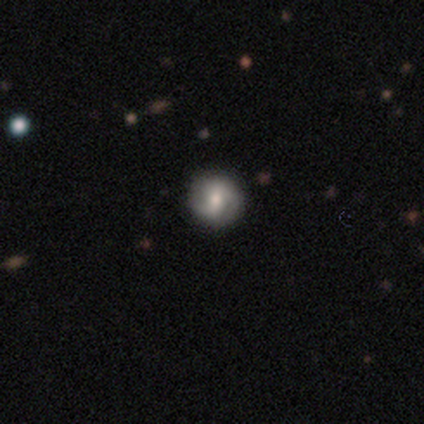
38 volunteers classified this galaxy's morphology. smooth-or-featured: smooth: 47% (tied) | featured or disk: 47% (tied) | star or artifact: 5%
  how-rounded: round: 100% | in between: 0% | cigar-shaped: 0%
  merging: none: 78% | minor disturbance: 11% | major disturbance: 6% | merger: 6%